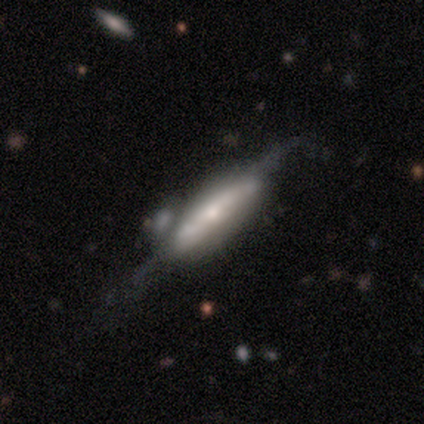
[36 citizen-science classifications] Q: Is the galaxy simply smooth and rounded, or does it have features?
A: featured or disk — 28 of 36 (78%).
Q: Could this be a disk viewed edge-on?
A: yes — 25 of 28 (89%).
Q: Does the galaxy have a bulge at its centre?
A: boxy — 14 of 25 (56%).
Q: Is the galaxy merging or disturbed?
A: none — 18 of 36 (50%).